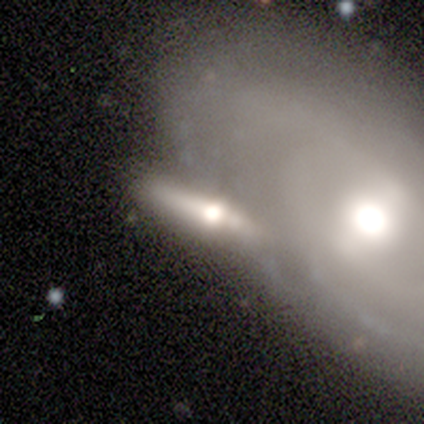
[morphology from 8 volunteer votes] Smooth or featured: featured or disk — 75% (smooth — 12%)
Edge-on disk: yes — 100%
Edge-on bulge: rounded — 100%
Merging: merger — 43% (none — 29%)